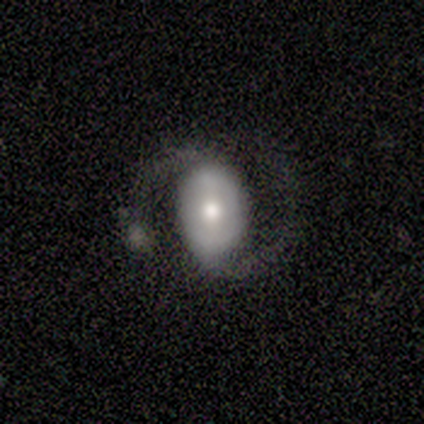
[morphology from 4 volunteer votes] Smooth or featured: featured or disk — 75% (smooth — 25%)
Edge-on disk: no — 100%
Bar: weak — 100%
Spiral arms: yes — 67% (no — 33%)
Spiral winding: medium — 50% (tied with loose — 50%)
Spiral arm count: 2 — 100%
Bulge size: large — 33% (tied with moderate — 33%; small — 33%)
Merging: none — 50% (tied with merger — 50%)